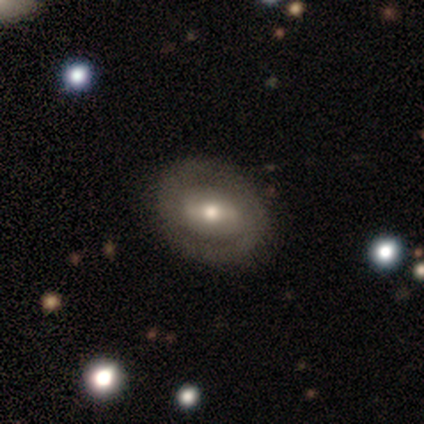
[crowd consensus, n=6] smooth-or-featured: smooth: 50% (tied) | featured or disk: 50% (tied) | star or artifact: 0%
  how-rounded: in between: 67% | round: 33% | cigar-shaped: 0%
  merging: none: 33% (tied) | minor disturbance: 33% (tied) | major disturbance: 33% (tied) | merger: 0%